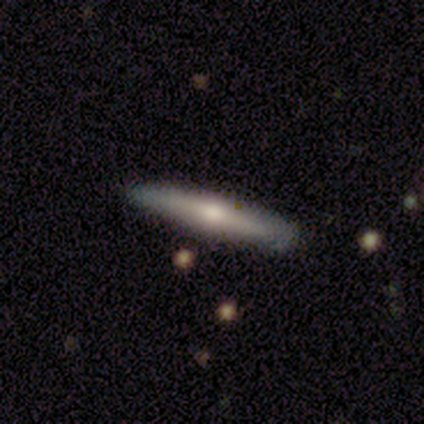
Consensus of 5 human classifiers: Morphology: type=smooth (60%); roundness=cigar-shaped (100%); merging=none (80%).